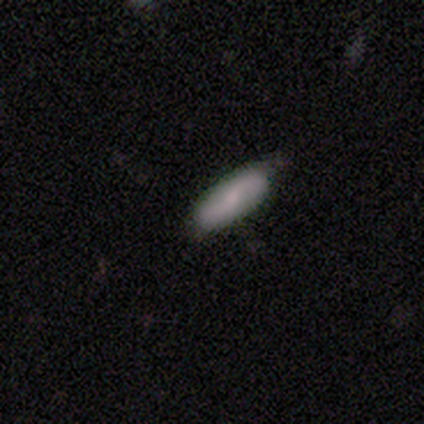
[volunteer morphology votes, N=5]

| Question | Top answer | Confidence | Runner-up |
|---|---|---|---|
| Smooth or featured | smooth | 100% | — |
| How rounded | in between | 40% | tied: cigar-shaped (40%) |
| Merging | none | 60% | minor disturbance (40%) |